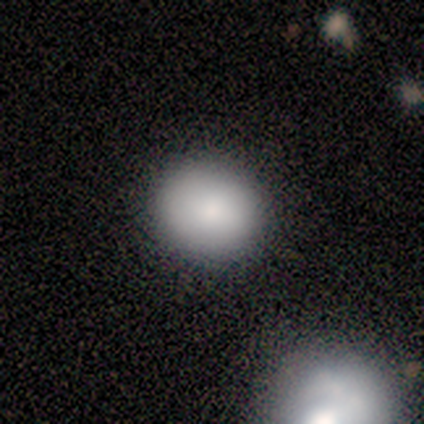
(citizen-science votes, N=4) Q: Smooth or featured?
A: smooth (100%)
Q: How rounded?
A: round (100%)
Q: Merging?
A: none (100%)